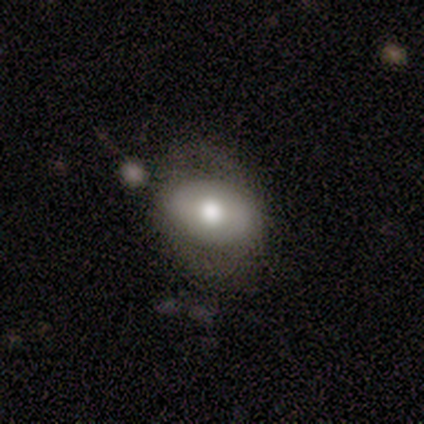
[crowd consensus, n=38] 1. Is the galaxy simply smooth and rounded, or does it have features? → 55% smooth, 37% featured or disk, 8% star or artifact.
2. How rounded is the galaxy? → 71% in between, 29% round, 0% cigar-shaped.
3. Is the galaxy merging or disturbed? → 69% none, 20% minor disturbance, 6% major disturbance, 6% merger.